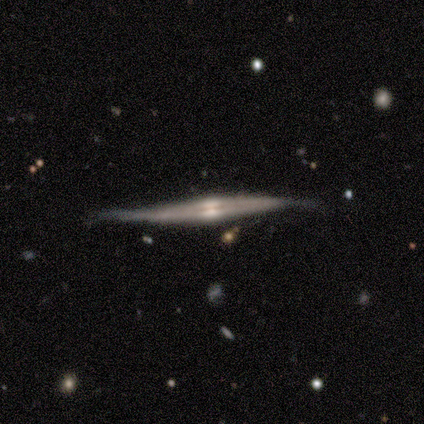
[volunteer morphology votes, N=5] smooth-or-featured: featured or disk: 60% | smooth: 20% | star or artifact: 20%
  disk-edge-on: yes: 100% | no: 0%
    edge-on-bulge: rounded: 67% | boxy: 33% | none: 0%
  merging: none: 25% (tied) | minor disturbance: 25% (tied) | major disturbance: 25% (tied) | merger: 25% (tied)